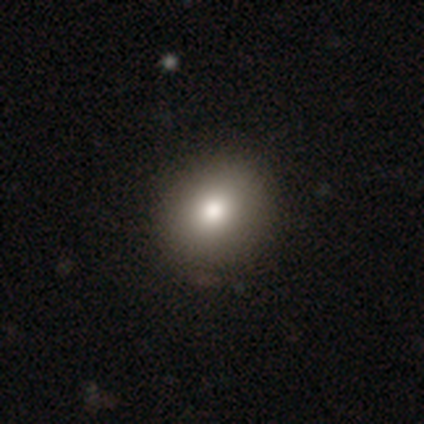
Overall: smooth (71%). How rounded: round (82%). Merging: none (93%).